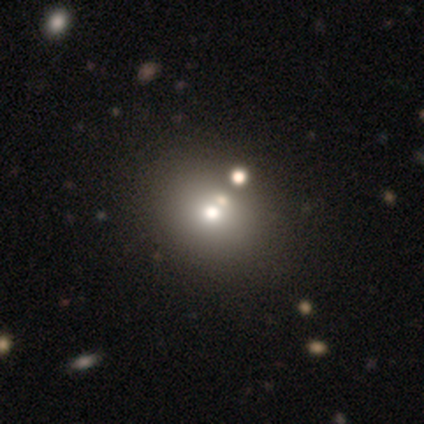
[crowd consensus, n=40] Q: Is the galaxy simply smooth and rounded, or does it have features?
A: smooth — 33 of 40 (82%).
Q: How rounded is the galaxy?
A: in between — 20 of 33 (61%).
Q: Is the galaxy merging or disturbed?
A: none — 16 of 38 (42%).